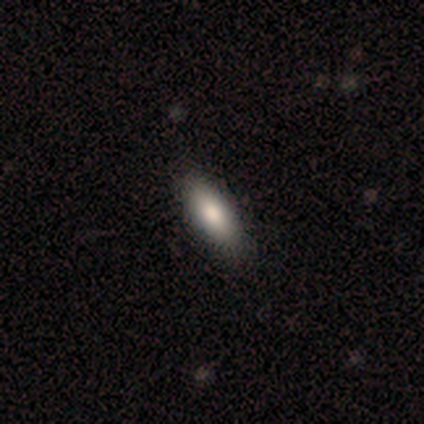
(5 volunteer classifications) Morphology: type=smooth (100%); roundness=in between (60%); merging=none (60%).